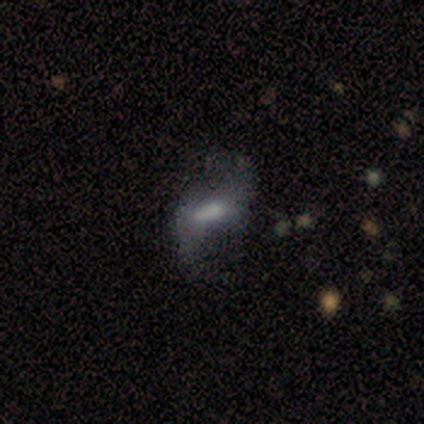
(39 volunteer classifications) Overall: featured or disk (67%; smooth 28%). Edge-on disk: no (77%). Bar: weak (70%). Spiral arms: yes (75%). Spiral arm count: 2 (100%). Spiral winding: loose (93%). Bulge size: moderate (40%; none 30%). Merging: none (41%; major disturbance 35%).